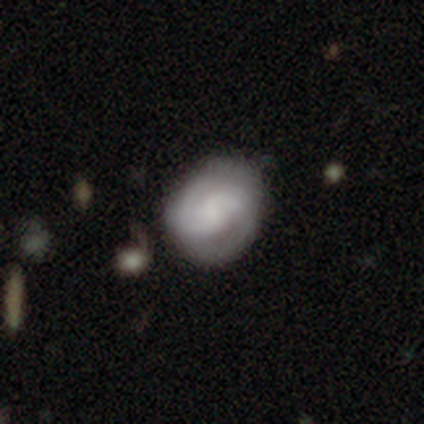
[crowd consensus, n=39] Smooth or featured?
  - featured or disk: 67% *
  - smooth: 33%
  - star or artifact: 0%
Edge-on disk?
  - no: 100% *
  - yes: 0%
Bar?
  - no: 54% *
  - weak: 31%
  - strong: 15%
Spiral arms?
  - yes: 92% *
  - no: 8%
Spiral winding?
  - medium: 54% *
  - tight: 29%
  - loose: 17%
Spiral arm count?
  - 2: 79% *
  - can't tell: 17%
  - 3: 4%
  - 1: 0%
  - 4: 0%
  - more than 4: 0%
Bulge size?
  - none: 42% *
  - large: 23%
  - moderate: 19%
  - small: 12%
  - dominant: 4%
Merging?
  - none: 49% *
  - minor disturbance: 18%
  - major disturbance: 13%
  - merger: 8%